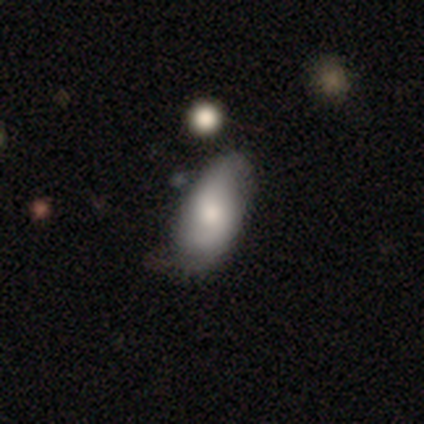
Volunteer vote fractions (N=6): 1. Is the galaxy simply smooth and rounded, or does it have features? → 67% smooth, 33% featured or disk, 0% star or artifact.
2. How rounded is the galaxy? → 100% in between, 0% round, 0% cigar-shaped.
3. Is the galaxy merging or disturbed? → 67% minor disturbance, 33% none, 0% major disturbance, 0% merger.